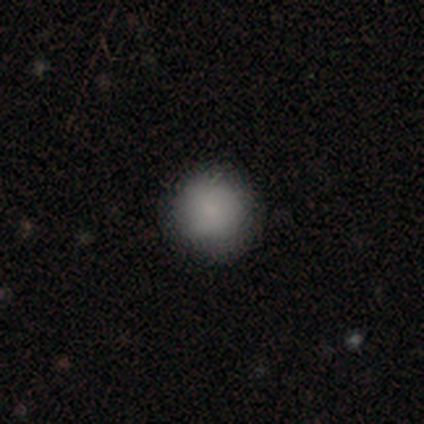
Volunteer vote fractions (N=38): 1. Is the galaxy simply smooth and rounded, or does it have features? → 87% smooth, 8% star or artifact, 5% featured or disk.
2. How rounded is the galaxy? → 97% round, 3% in between, 0% cigar-shaped.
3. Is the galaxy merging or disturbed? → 89% none, 11% minor disturbance, 0% major disturbance, 0% merger.